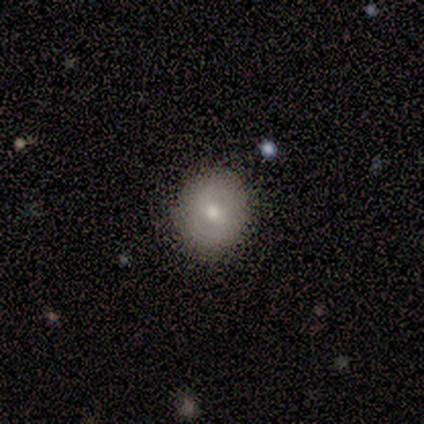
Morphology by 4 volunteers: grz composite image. It shows a smooth galaxy with no disk features (100%) that is round (100%). Merging: none (100%).